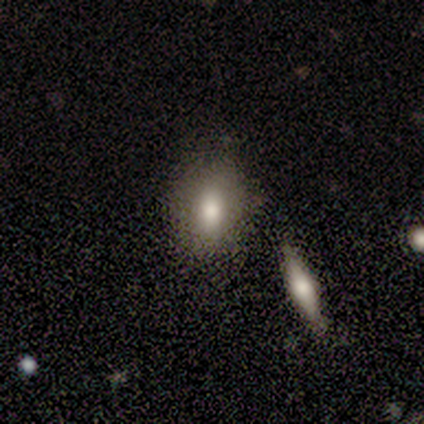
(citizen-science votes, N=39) A smooth galaxy with no disk features (77%) that is in between round and cigar-shaped (57%).

Vote fractions:
- Smooth or featured? smooth: 77% / featured or disk: 21% / star or artifact: 3%
- How rounded? in between: 57% / round: 37% / cigar-shaped: 7%
- Merging? none: 71% / minor disturbance: 18% / major disturbance: 8% / merger: 3%